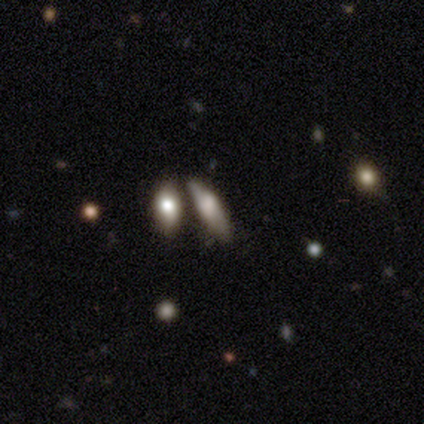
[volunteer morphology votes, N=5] A smooth galaxy with no disk features (60%) that is in between round and cigar-shaped (67%). Merging: none (60%).